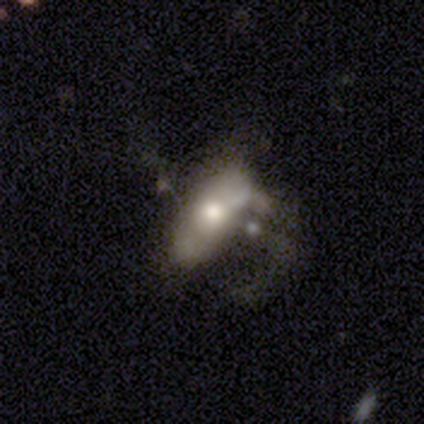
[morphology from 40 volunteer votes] This appears to be a smooth galaxy with no disk features (48%, tied with featured or disk) that is in between round and cigar-shaped (74%). Merging: major disturbance (37%).